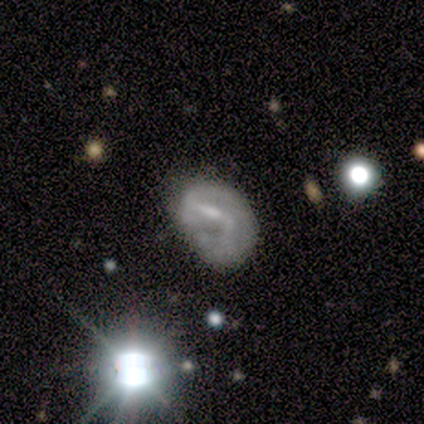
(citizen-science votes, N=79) Volunteers were most divided on "merging": minor disturbance: 38%, none: 33%, major disturbance: 27%, merger: 1%. More confident: edge-on disk — no (98%); spiral arms — yes (87%); smooth or featured — featured or disk (70%); spiral arm count — 2 (60%); spiral winding — medium (60%); bulge size — small (56%); bar — weak (52%).